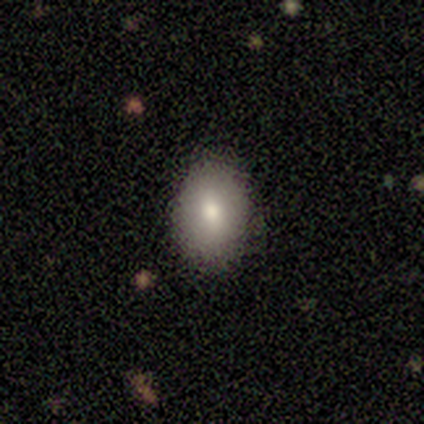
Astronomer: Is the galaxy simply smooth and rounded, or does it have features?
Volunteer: smooth — 100%.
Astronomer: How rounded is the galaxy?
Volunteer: in between — 67%.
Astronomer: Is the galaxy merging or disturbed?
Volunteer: none — 100%.